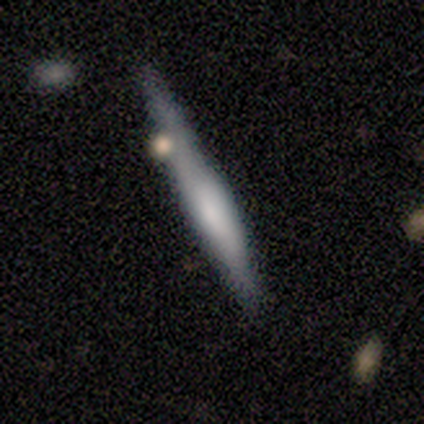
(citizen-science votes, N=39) Smooth or featured? smooth (56%)
How rounded? cigar-shaped (82%)
Merging? none (51%)